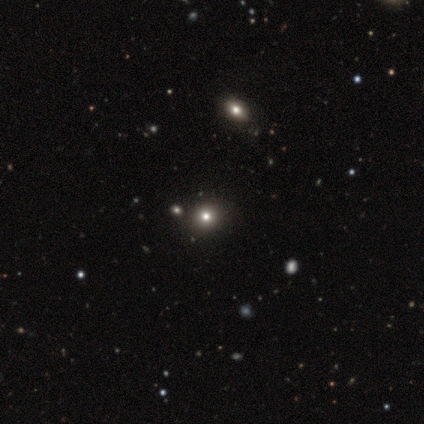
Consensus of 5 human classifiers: Smooth or featured: smooth — 80% (star or artifact — 20%)
How rounded: round — 100%
Merging: none — 75% (minor disturbance — 25%)